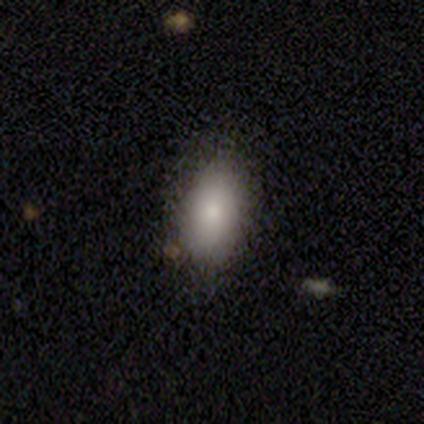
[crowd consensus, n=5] A smooth galaxy with no disk features (80%) that is in between round and cigar-shaped (100%).

Vote fractions:
- Smooth or featured? smooth: 80% / featured or disk: 20% / star or artifact: 0%
- How rounded? in between: 100% / round: 0% / cigar-shaped: 0%
- Merging? none: 80% / minor disturbance: 20% / major disturbance: 0% / merger: 0%